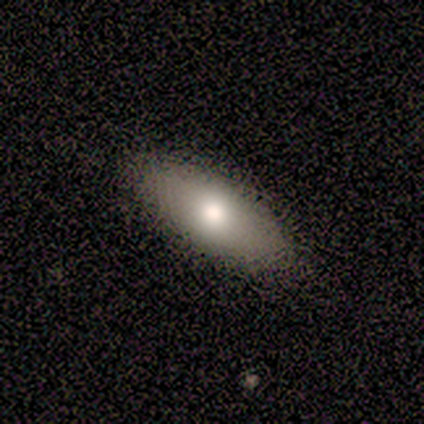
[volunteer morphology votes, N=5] This appears to be a smooth galaxy with no disk features (80%) that is in between round and cigar-shaped (75%). Merging: none (100%).